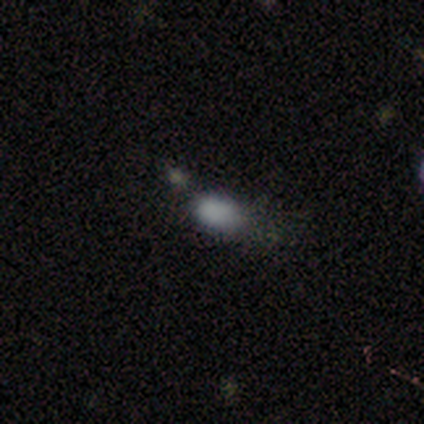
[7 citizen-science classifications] smooth 100%, featured or disk 0%, star or artifact 0%. Down the decision tree: how rounded — in between (86%); merging — minor disturbance (57%).